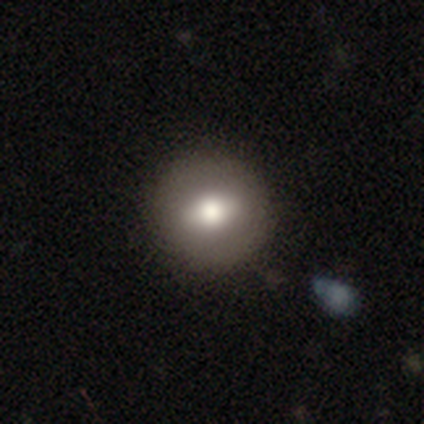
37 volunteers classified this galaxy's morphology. A smooth galaxy with no disk features (65%) that is round (79%). Merging: none (88%).